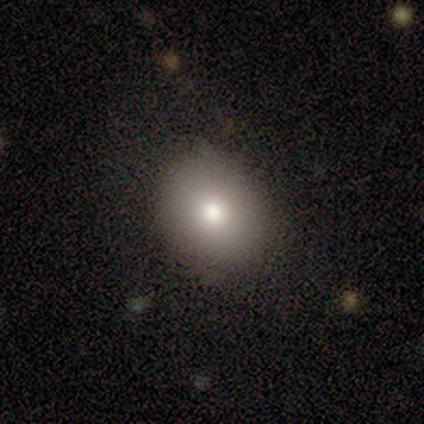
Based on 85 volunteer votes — Overall: smooth (80%). How rounded: round (56%; in between 43%). Merging: none (78%).